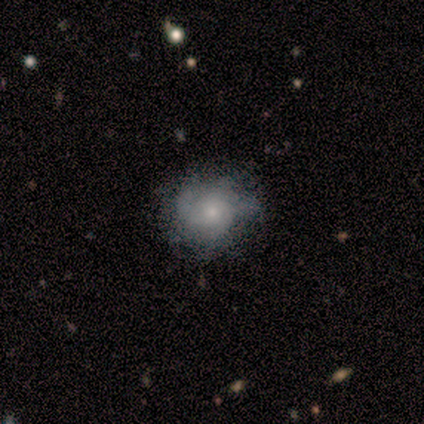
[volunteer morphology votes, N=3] smooth_or_featured: featured or disk (p=0.67) [alt: smooth p=0.33]
disk_edge_on: no (p=1.00)
bar: no (p=1.00)
has_spiral_arms: yes (p=0.50) [tied with: no p=0.50]
spiral_winding: medium (p=1.00)
spiral_arm_count: can't tell (p=1.00)
bulge_size: small (p=1.00)
merging: none (p=1.00)